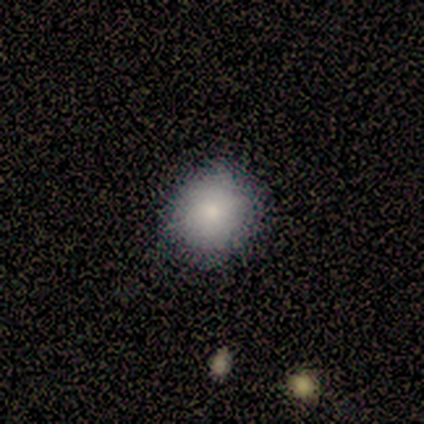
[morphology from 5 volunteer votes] type=smooth (100%); roundness=round (80%); merging=none (100%).